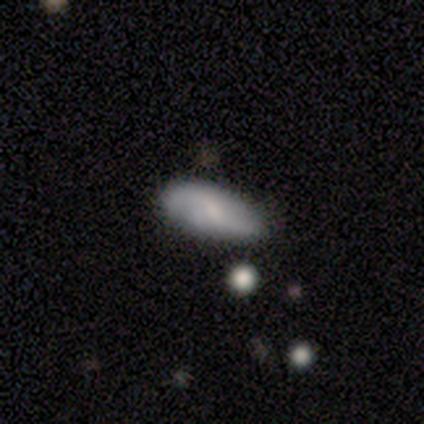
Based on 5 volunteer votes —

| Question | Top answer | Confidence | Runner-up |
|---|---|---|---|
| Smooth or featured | smooth | 80% | featured or disk (20%) |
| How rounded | in between | 75% | cigar-shaped (25%) |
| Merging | none | 100% | — |